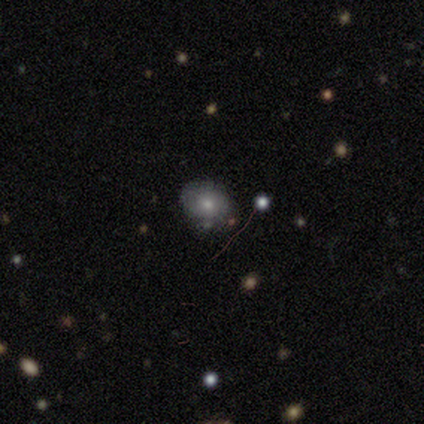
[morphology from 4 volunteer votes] A smooth galaxy with no disk features (75%) that is round (100%).

Vote fractions:
- Smooth or featured? smooth: 75% / featured or disk: 25% / star or artifact: 0%
- How rounded? round: 100% / in between: 0% / cigar-shaped: 0%
- Merging? none: 100% / minor disturbance: 0% / major disturbance: 0% / merger: 0%